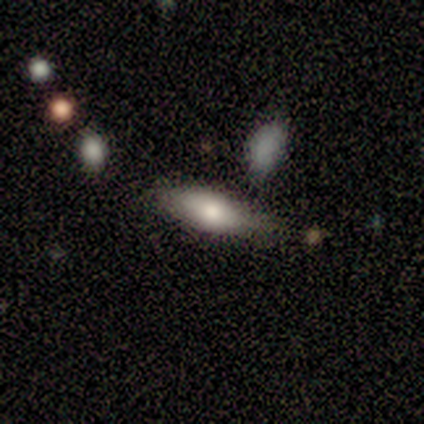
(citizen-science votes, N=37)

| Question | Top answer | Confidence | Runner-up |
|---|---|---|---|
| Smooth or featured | smooth | 65% | featured or disk (19%) |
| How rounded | in between | 62% | cigar-shaped (38%) |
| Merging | none | 61% | minor disturbance (19%) |